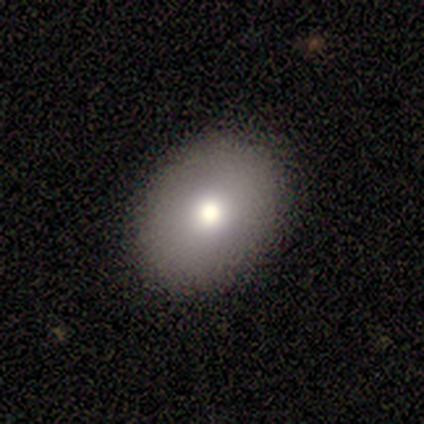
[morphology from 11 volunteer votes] A smooth galaxy with no disk features (82%) that is in between round and cigar-shaped (100%). Merging: none (90%).